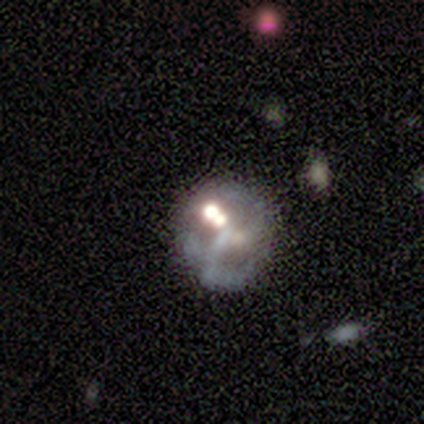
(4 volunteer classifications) Q: Smooth or featured?
A: star or artifact (50%); runner-up: smooth (25%)